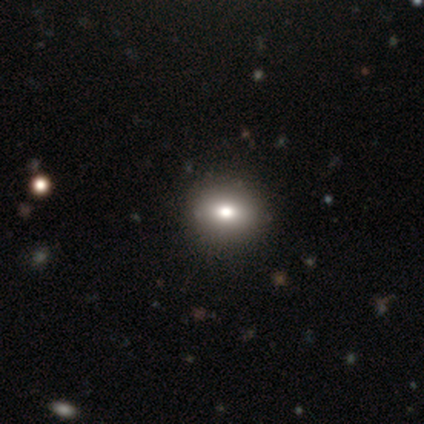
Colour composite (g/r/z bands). It shows a smooth galaxy with no disk features (100%) that is round (80%). Merging: none (100%).